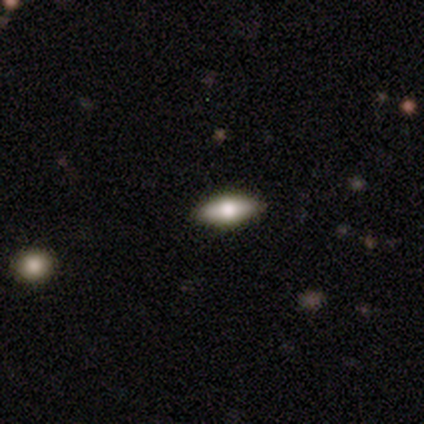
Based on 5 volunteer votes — smooth-or-featured: smooth: 60% | featured or disk: 40% | star or artifact: 0%
  how-rounded: round: 33% (tied) | in between: 33% (tied) | cigar-shaped: 33% (tied)
  merging: none: 80% | minor disturbance: 20% | major disturbance: 0% | merger: 0%